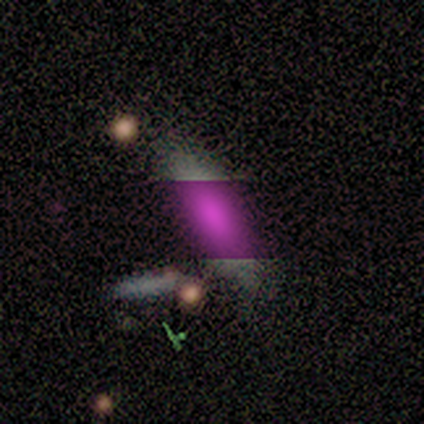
smooth_or_featured: smooth (p=0.62) [alt: star or artifact p=0.23]
how_rounded: cigar-shaped (p=0.62) [alt: in between p=0.38]
merging: none (p=0.90) [alt: minor disturbance p=0.10]